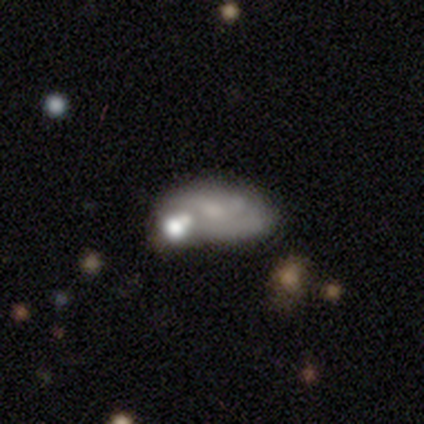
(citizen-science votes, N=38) Morphology: type=featured or disk (74%); edge-on=no (100%); bar=no (89%); spiral arms=no (61%); bulge=small (36%); merging=none (27%).